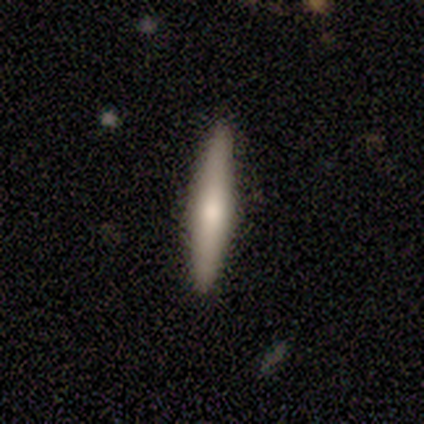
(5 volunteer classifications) This appears to be a smooth galaxy with no disk features (60%) that is cigar-shaped (100%). Merging: none (100%).